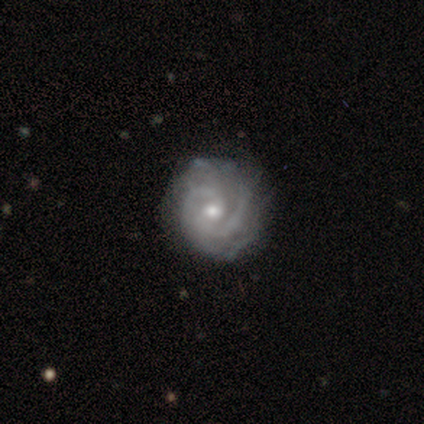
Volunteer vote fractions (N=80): A featured or disk galaxy (94%) with no bar (76%), 2 (41%) tight (57%) spiral arms (95%) and a moderate central bulge (58%). Merging: none (38%).